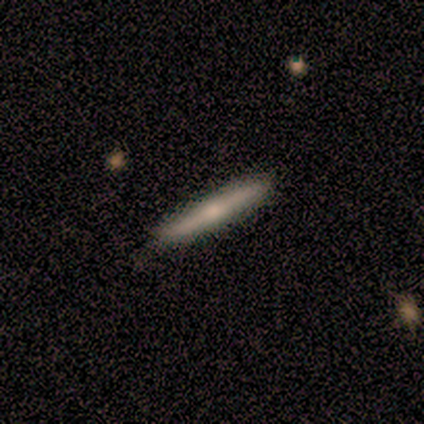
Morphology: type=featured or disk (60%); edge-on=yes (67%); edge-on bulge=rounded (100%); merging=none (60%).